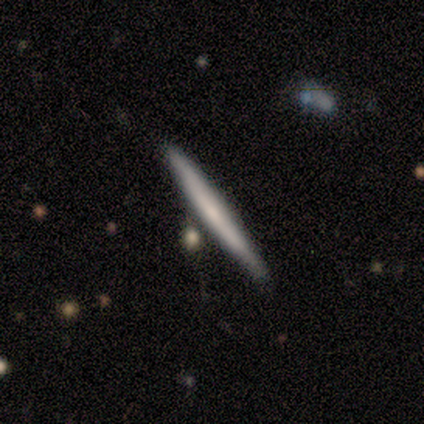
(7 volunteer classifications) Volunteers were most divided on "edge-on bulge": none: 50%, boxy: 33%, rounded: 17%. More confident: edge-on disk — yes (100%); smooth or featured — featured or disk (86%); merging — none (86%).